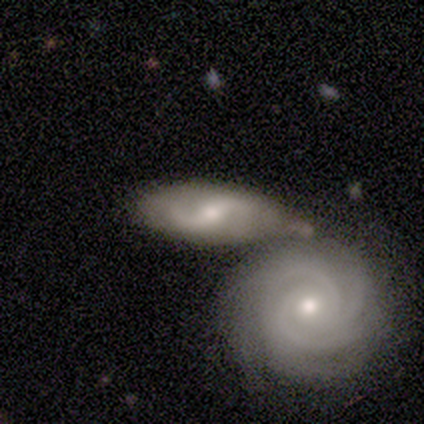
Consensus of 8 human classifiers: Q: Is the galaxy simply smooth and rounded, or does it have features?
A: featured or disk — 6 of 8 (75%).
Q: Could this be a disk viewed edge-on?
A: no — 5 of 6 (83%).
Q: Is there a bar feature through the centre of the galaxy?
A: weak — 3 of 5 (60%).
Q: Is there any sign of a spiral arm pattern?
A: yes — 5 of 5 (100%).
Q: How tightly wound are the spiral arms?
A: medium — 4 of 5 (80%).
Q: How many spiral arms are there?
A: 2 — 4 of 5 (80%).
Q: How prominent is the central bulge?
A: small — 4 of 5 (80%).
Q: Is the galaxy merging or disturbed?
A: none — 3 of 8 (38%, tied with merger).